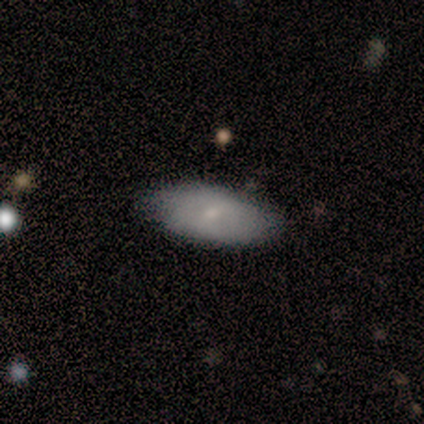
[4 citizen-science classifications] Smooth or featured?
  - smooth: 100% *
  - featured or disk: 0%
  - star or artifact: 0%
How rounded?
  - in between: 75% *
  - cigar-shaped: 25%
  - round: 0%
Merging?
  - none: 75% *
  - minor disturbance: 25%
  - major disturbance: 0%
  - merger: 0%